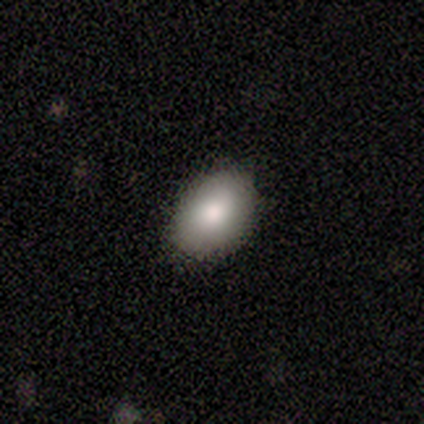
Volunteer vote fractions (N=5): smooth-or-featured: smooth: 100% | featured or disk: 0% | star or artifact: 0%
  how-rounded: in between: 60% | round: 40% | cigar-shaped: 0%
  merging: none: 100% | minor disturbance: 0% | major disturbance: 0% | merger: 0%